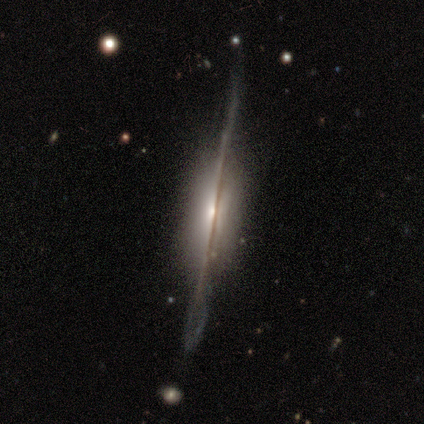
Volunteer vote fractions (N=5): This appears to be a featured or disk galaxy (100%) viewed edge-on (80%) with a rounded central bulge (75%). Merging: minor disturbance (60%).